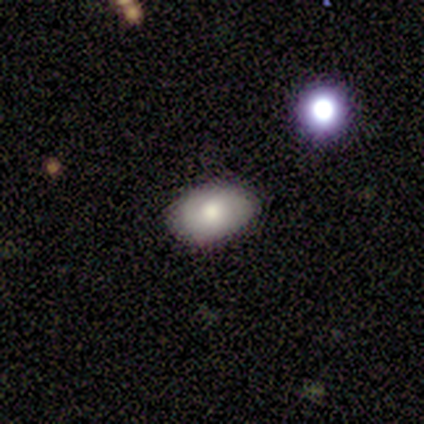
Smooth or featured?
  - smooth: 100% *
  - featured or disk: 0%
  - star or artifact: 0%
How rounded?
  - in between: 100% *
  - round: 0%
  - cigar-shaped: 0%
Merging?
  - none: 80% *
  - minor disturbance: 20%
  - major disturbance: 0%
  - merger: 0%